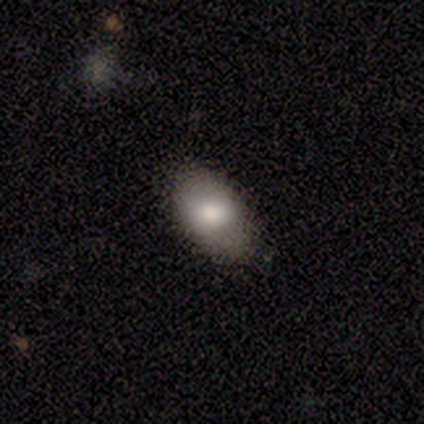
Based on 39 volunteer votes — Smooth or featured: smooth — 77% (featured or disk — 13%)
How rounded: in between — 93% (round — 7%)
Merging: none — 80% (minor disturbance — 14%)